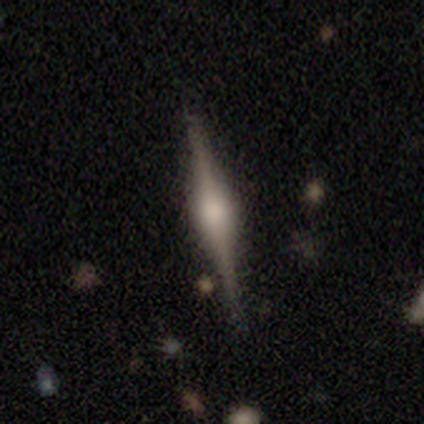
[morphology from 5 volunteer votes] A featured or disk galaxy (60%) viewed edge-on (100%) with a rounded central bulge (100%). Merging: none (100%).